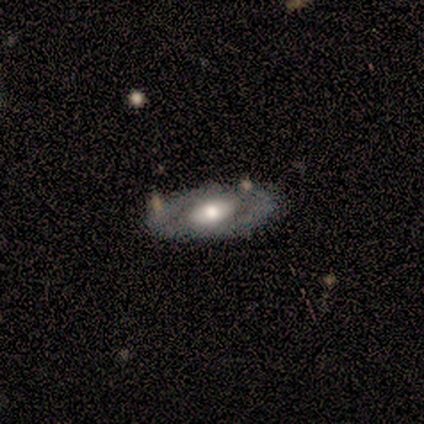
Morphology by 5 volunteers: This is clearly a featured or disk galaxy (80%). It is clearly not viewed edge-on (100%). Bar: clearly no (100%). Spiral arm pattern: clearly no (100%). Central bulge: possibly large (50%). Merging: clearly none (100%).